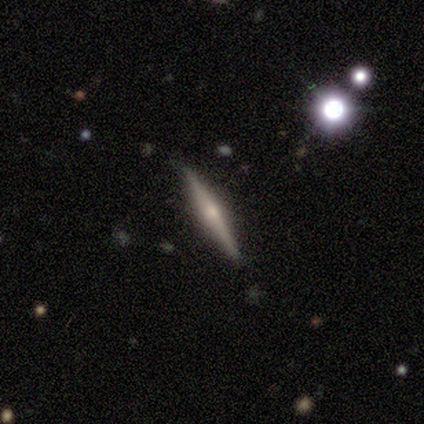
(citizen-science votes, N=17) A featured or disk galaxy (71%) viewed edge-on (100%) with a rounded central bulge (67%). Merging: none (100%).